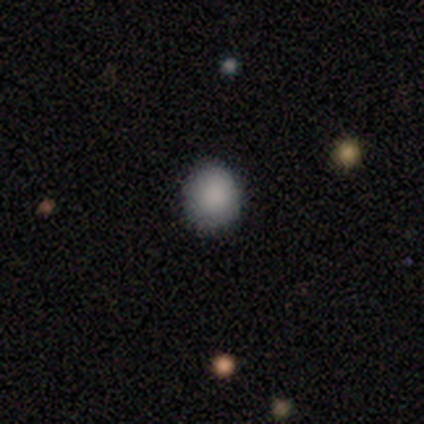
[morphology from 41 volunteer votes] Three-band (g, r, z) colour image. It shows a smooth galaxy with no disk features (98%) that is round (78%). Merging: none (78%).